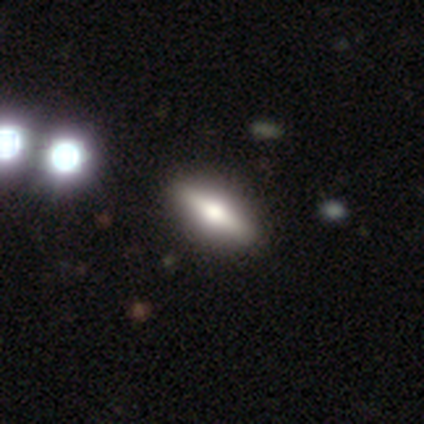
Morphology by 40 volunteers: Smooth or featured? featured or disk (52%)
Edge-on disk? yes (86%)
Edge-on bulge? rounded (89%)
Merging? none (76%)